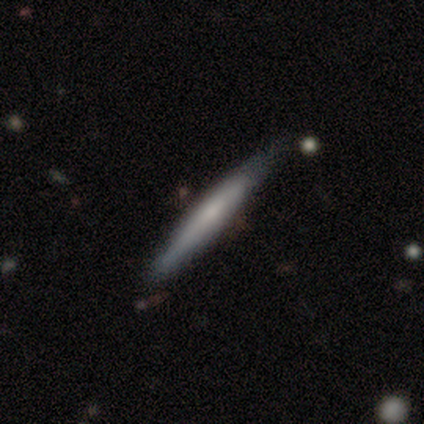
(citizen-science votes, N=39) This is possibly a smooth galaxy (49%). How rounded: clearly cigar-shaped (100%). Merging: clearly none (85%).